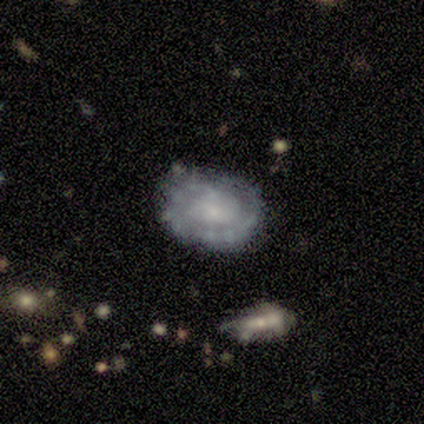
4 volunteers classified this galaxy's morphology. smooth_or_featured: featured or disk (p=1.00)
disk_edge_on: no (p=1.00)
bar: no (p=1.00)
has_spiral_arms: yes (p=0.50) [tied with: no p=0.50]
spiral_winding: tight (p=0.50) [tied with: loose p=0.50]
spiral_arm_count: 1 (p=0.50) [tied with: 2 p=0.50]
bulge_size: small (p=0.50) [alt: large p=0.25]
merging: none (p=0.50) [tied with: minor disturbance p=0.50]